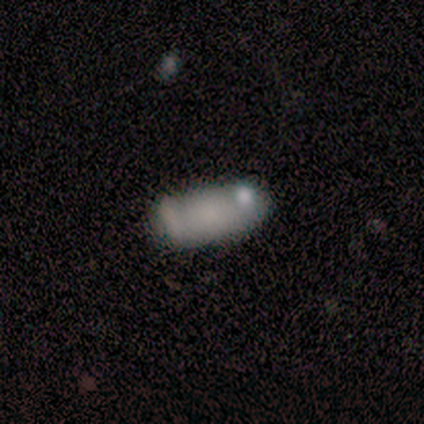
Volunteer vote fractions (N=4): Smooth or featured? 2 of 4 (50%) said smooth. How rounded? 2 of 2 (100%) said in between. Merging? 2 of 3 (67%) said minor disturbance.